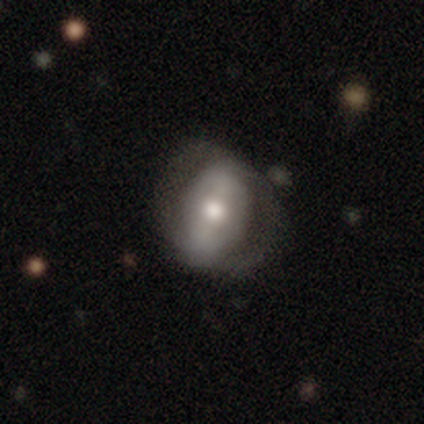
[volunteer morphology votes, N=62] Smooth or featured? featured or disk (66%)
Edge-on disk? no (98%)
Bar? strong (50%)
Spiral arms? yes (50%, tied with no)
Spiral winding? tight (65%)
Spiral arm count? 2 (70%)
Bulge size? moderate (70%)
Merging? none (67%)